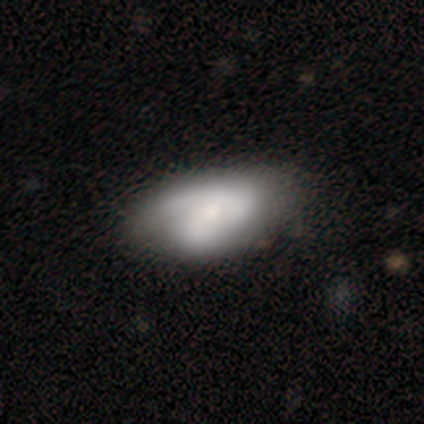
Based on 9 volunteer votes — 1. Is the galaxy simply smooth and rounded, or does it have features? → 67% featured or disk, 22% smooth, 11% star or artifact.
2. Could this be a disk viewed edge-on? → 100% no, 0% yes.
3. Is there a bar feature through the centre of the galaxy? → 50% no, 33% weak, 17% strong.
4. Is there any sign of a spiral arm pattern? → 83% yes, 17% no.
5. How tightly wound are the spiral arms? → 80% loose, 20% tight, 0% medium.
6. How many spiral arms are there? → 80% 2, 20% 1, 0% 3, 0% 4, 0% more than 4, 0% can't tell.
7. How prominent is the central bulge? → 50% moderate (tied), 50% small (tied), 0% dominant, 0% large, 0% none.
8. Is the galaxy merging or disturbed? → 62% none, 25% minor disturbance, 12% major disturbance, 0% merger.